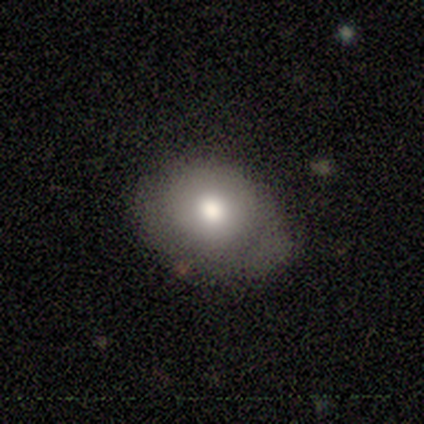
smooth-or-featured: smooth: 50% | featured or disk: 25% | star or artifact: 25%
  how-rounded: in between: 100% | round: 0% | cigar-shaped: 0%
  merging: none: 100% | minor disturbance: 0% | major disturbance: 0% | merger: 0%